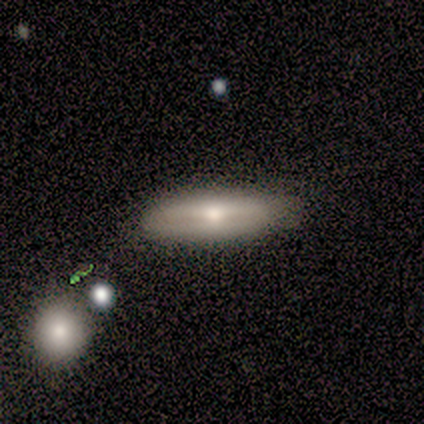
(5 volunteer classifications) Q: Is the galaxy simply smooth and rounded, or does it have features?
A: smooth — 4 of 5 (80%).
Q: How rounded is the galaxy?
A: in between — 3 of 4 (75%).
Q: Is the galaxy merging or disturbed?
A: none — 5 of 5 (100%).